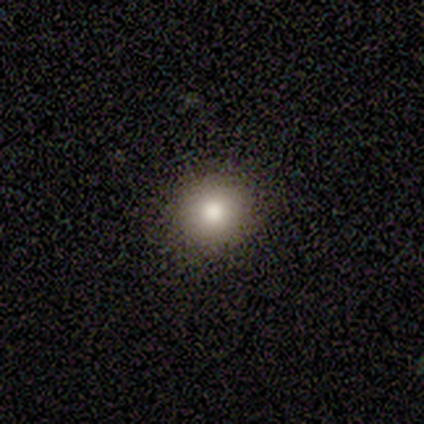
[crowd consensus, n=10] Q: Smooth or featured?
A: smooth (90%); runner-up: star or artifact (10%)
Q: How rounded?
A: round (100%)
Q: Merging?
A: none (100%)